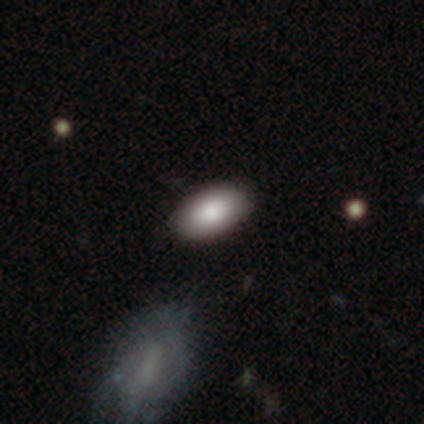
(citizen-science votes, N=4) This appears to be a smooth galaxy with no disk features (100%) that is in between round and cigar-shaped (75%). Merging: none (100%).